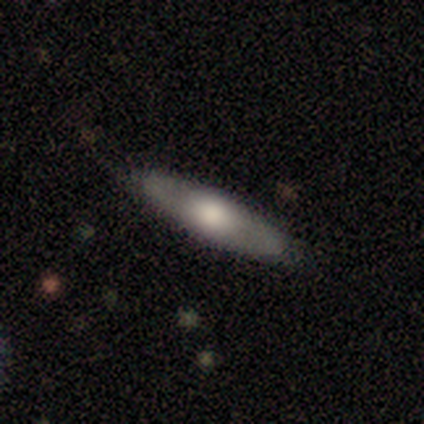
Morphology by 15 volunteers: Smooth or featured?
  - smooth: 60% *
  - featured or disk: 40%
  - star or artifact: 0%
How rounded?
  - cigar-shaped: 78% *
  - in between: 22%
  - round: 0%
Merging?
  - none: 100% *
  - minor disturbance: 0%
  - major disturbance: 0%
  - merger: 0%